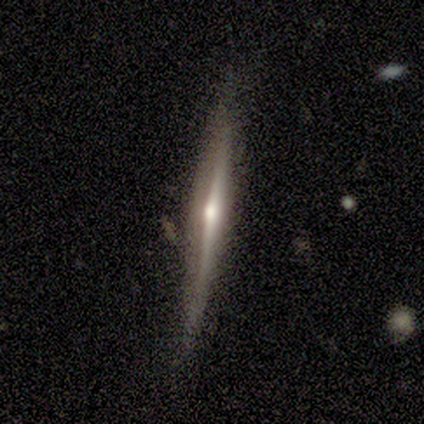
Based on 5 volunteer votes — featured or disk 100%, smooth 0%, star or artifact 0%. Down the decision tree: edge-on disk — yes (100%); edge-on bulge — rounded (80%); merging — none (60%).